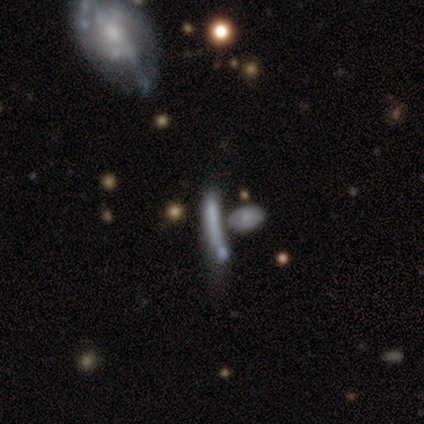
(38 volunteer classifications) smooth 47%, featured or disk 42%, star or artifact 11%. Down the decision tree: how rounded — cigar-shaped (78%); merging — none (32%).